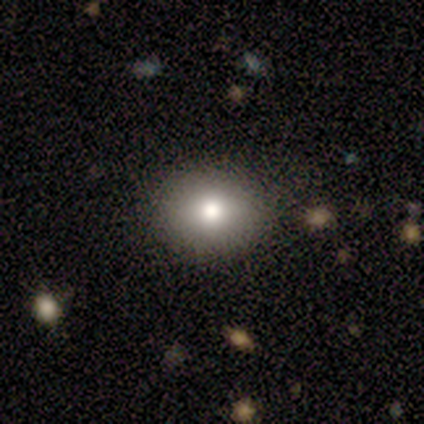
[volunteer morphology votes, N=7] Smooth or featured: smooth — 86% (star or artifact — 14%)
How rounded: round — 67% (in between — 33%)
Merging: none — 67% (minor disturbance — 17%)